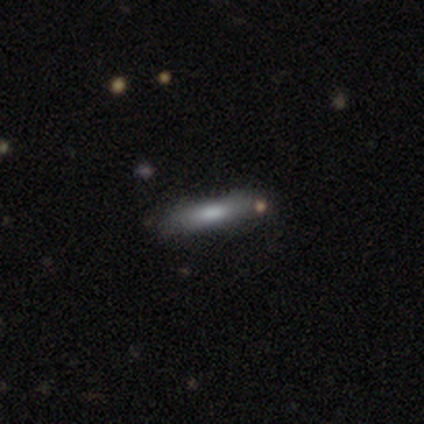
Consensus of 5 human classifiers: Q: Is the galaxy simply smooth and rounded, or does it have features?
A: smooth — 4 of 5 (80%).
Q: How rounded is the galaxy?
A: cigar-shaped — 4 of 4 (100%).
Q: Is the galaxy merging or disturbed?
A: none — 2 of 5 (40%).